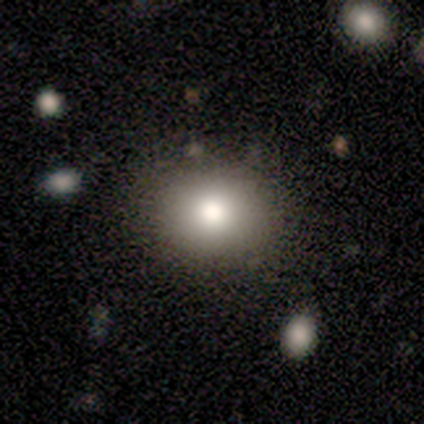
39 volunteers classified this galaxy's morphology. Q: Smooth or featured?
A: smooth (79%); runner-up: featured or disk (10%)
Q: How rounded?
A: round (55%); runner-up: in between (45%)
Q: Merging?
A: none (97%); runner-up: merger (3%)